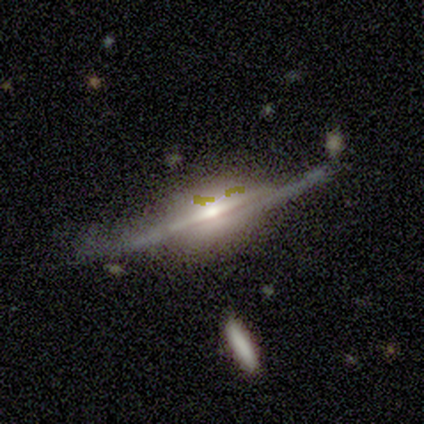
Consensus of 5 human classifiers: Smooth or featured? 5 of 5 (100%) said featured or disk. Edge-on disk? 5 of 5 (100%) said yes. Edge-on bulge? 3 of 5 (60%) said rounded. Merging? 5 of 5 (100%) said none.